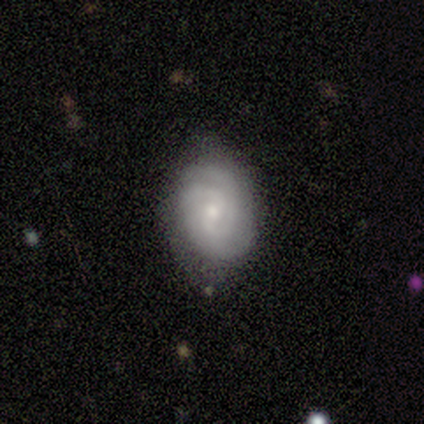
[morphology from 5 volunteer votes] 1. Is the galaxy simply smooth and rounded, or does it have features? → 60% featured or disk, 40% smooth, 0% star or artifact.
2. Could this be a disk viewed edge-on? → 100% no, 0% yes.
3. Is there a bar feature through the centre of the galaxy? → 100% weak, 0% strong, 0% no.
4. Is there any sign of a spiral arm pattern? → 100% yes, 0% no.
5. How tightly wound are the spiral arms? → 67% tight, 33% medium, 0% loose.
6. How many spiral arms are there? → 67% can't tell, 33% 2, 0% 1, 0% 3, 0% 4, 0% more than 4.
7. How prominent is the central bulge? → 67% small, 33% moderate, 0% dominant, 0% large, 0% none.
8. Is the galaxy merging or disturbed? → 100% none, 0% minor disturbance, 0% major disturbance, 0% merger.